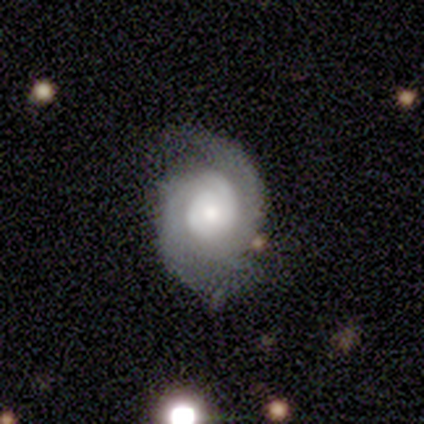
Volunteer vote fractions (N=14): smooth_or_featured: featured or disk (p=0.79) [alt: smooth p=0.14]
disk_edge_on: no (p=1.00)
bar: no (p=1.00)
has_spiral_arms: yes (p=1.00)
spiral_winding: tight (p=0.64) [alt: medium p=0.27]
spiral_arm_count: 2 (p=0.82) [alt: can't tell p=0.18]
bulge_size: moderate (p=0.64) [alt: small p=0.27]
merging: none (p=0.62) [alt: minor disturbance p=0.23]